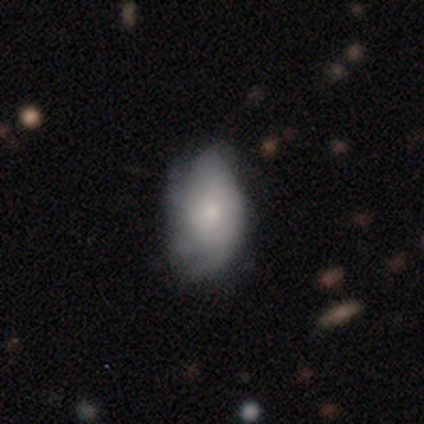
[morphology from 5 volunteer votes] Smooth or featured? smooth (80%)
How rounded? in between (100%)
Merging? none (60%)